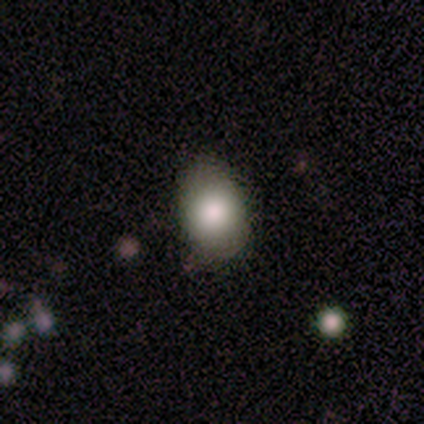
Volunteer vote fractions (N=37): Smooth or featured?
  - smooth: 81% *
  - star or artifact: 11%
  - featured or disk: 8%
How rounded?
  - in between: 70% *
  - round: 30%
  - cigar-shaped: 0%
Merging?
  - none: 88% *
  - minor disturbance: 12%
  - major disturbance: 0%
  - merger: 0%